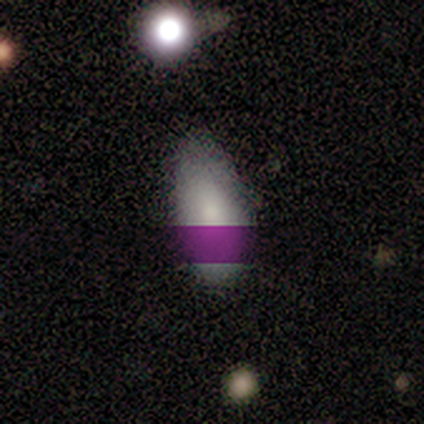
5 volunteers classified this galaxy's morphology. A smooth galaxy with no disk features (100%) that is in between round and cigar-shaped (100%).

Vote fractions:
- Smooth or featured? smooth: 100% / featured or disk: 0% / star or artifact: 0%
- How rounded? in between: 100% / round: 0% / cigar-shaped: 0%
- Merging? none: 60% / minor disturbance: 40% / major disturbance: 0% / merger: 0%